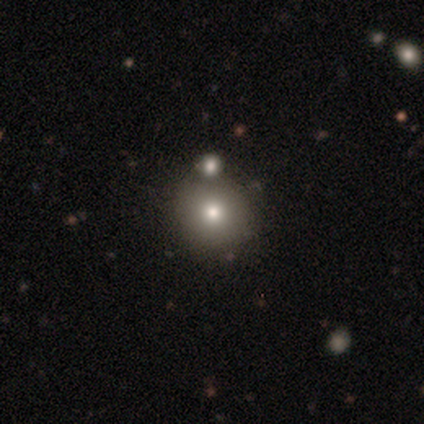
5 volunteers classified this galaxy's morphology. Q: Smooth or featured?
A: smooth (60%); runner-up: star or artifact (40%)
Q: How rounded?
A: round (67%); runner-up: in between (33%)
Q: Merging?
A: merger (67%); runner-up: none (33%)